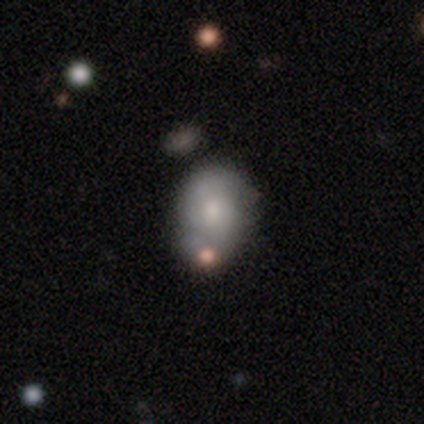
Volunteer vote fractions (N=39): Volunteers were most divided on "merging": none: 38%, minor disturbance: 32%, merger: 19%, major disturbance: 11%. More confident: how rounded — in between (61%); smooth or featured — smooth (59%).